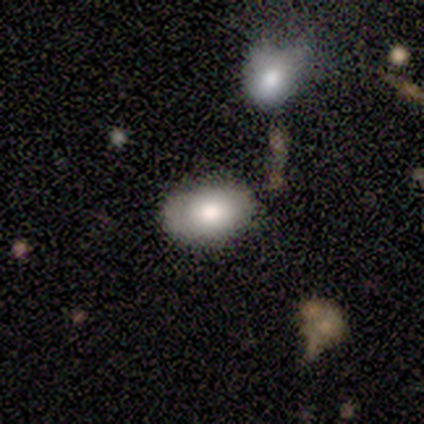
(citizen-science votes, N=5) Smooth or featured: smooth — 100%
How rounded: in between — 80% (round — 20%)
Merging: none — 60% (minor disturbance — 40%)